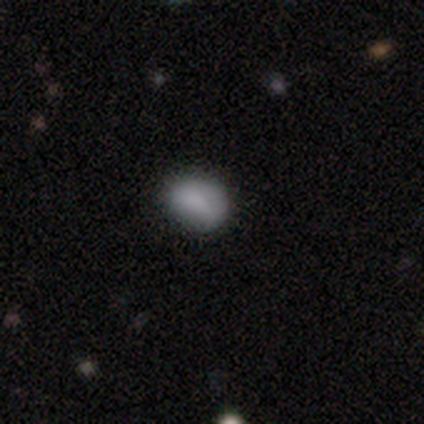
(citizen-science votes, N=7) Morphology: type=smooth (71%); roundness=in between (80%); merging=none (100%).